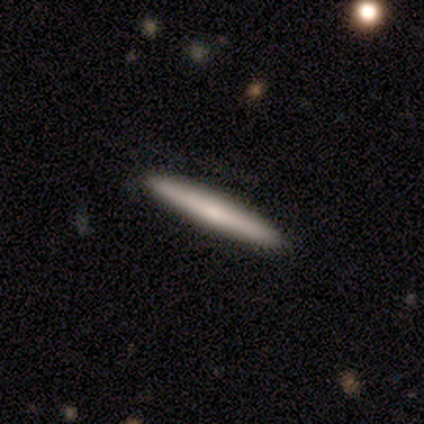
smooth-or-featured: smooth: 59% | featured or disk: 39% | star or artifact: 2%
  how-rounded: cigar-shaped: 96% | in between: 4% | round: 0%
  merging: none: 68% | merger: 2% | minor disturbance: 0% | major disturbance: 0%